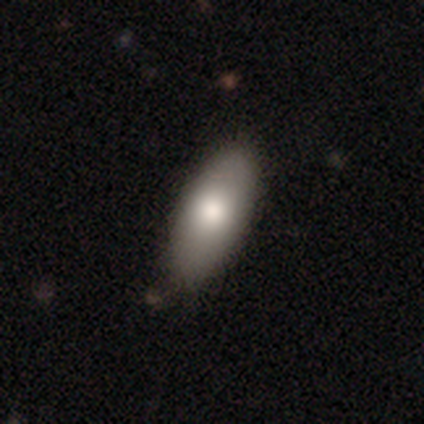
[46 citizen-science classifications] This appears to be a smooth galaxy with no disk features (83%) that is in between round and cigar-shaped (79%). Merging: none (88%).